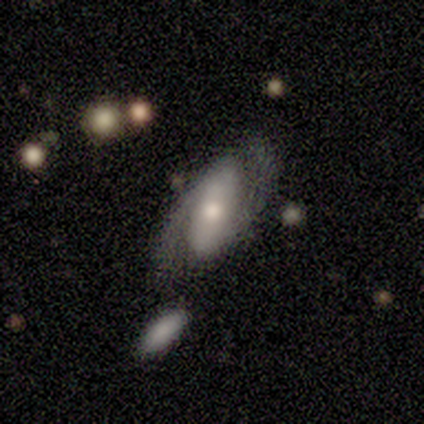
This appears to be a featured or disk galaxy (50%) with a weak bar (50%, tied with no), 2 (50%, tied with can't tell) tight (100%) spiral arms (100%) and a moderate central bulge (100%). Merging: none (67%).